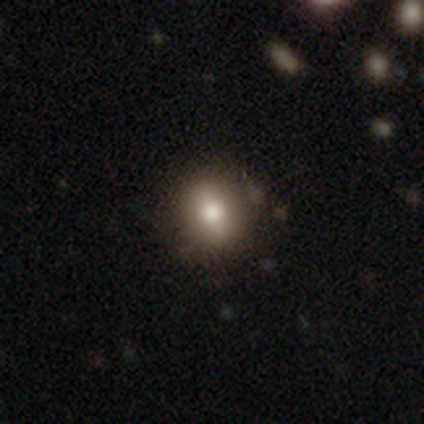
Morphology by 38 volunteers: type=smooth (63%); roundness=round (58%); merging=none (78%).